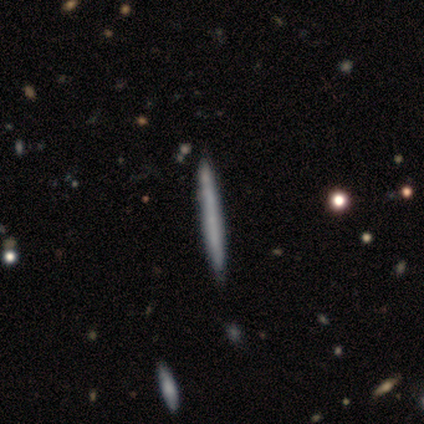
This is likely a smooth galaxy (60%). How rounded: clearly cigar-shaped (100%). Merging: clearly none (80%).